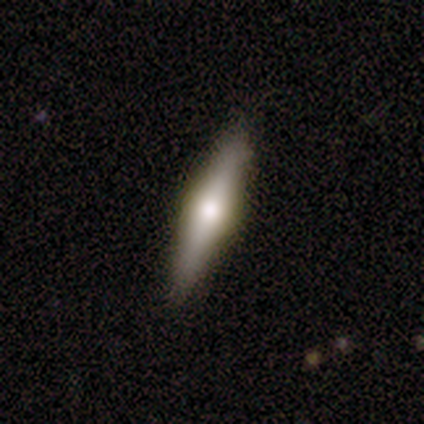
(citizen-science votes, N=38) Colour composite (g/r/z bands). It shows a featured or disk galaxy (53%) viewed edge-on (100%) with a rounded central bulge (85%). Merging: none (81%).